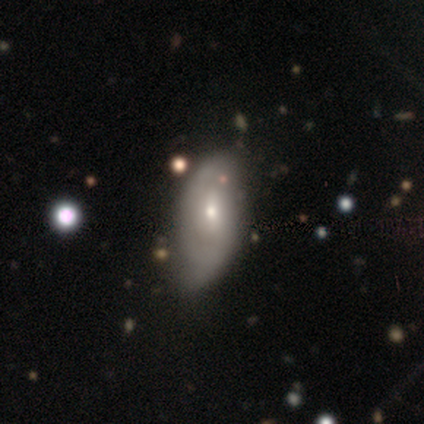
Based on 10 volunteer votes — smooth 50%, featured or disk 40%, star or artifact 10%. Down the decision tree: how rounded — in between (80%); merging — minor disturbance (56%).